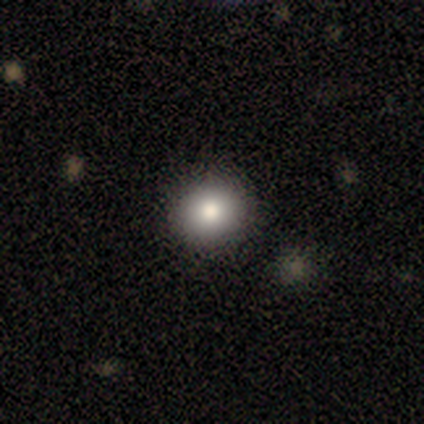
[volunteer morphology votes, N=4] A smooth galaxy with no disk features (50%, tied with featured or disk) that is round (100%).

Vote fractions:
- Smooth or featured? smooth: 50% (tied) / featured or disk: 50% (tied) / star or artifact: 0%
- How rounded? round: 100% / in between: 0% / cigar-shaped: 0%
- Merging? none: 100% / minor disturbance: 0% / major disturbance: 0% / merger: 0%